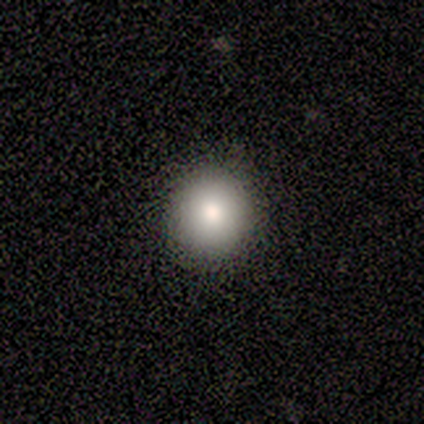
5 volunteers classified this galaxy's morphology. Smooth or featured? 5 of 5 (100%) said smooth. How rounded? 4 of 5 (80%) said round. Merging? 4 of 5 (80%) said none.